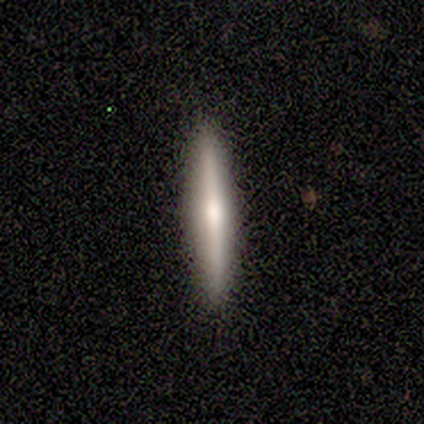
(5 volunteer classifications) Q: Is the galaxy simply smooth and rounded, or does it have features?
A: featured or disk — 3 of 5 (60%).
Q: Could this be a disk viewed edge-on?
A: yes — 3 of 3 (100%).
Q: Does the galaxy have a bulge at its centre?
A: rounded — 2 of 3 (67%).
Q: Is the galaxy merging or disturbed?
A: none — 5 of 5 (100%).